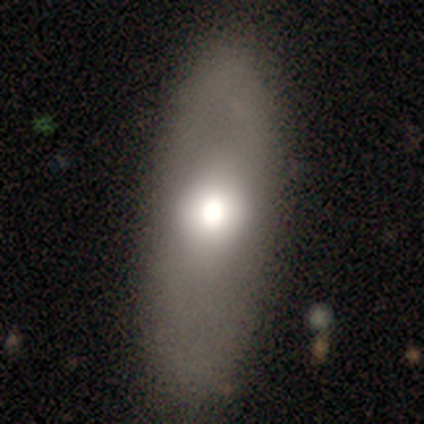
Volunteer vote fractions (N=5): A smooth galaxy with no disk features (40%, tied with featured or disk) that is round (50%, tied with in between). Merging: none (75%).